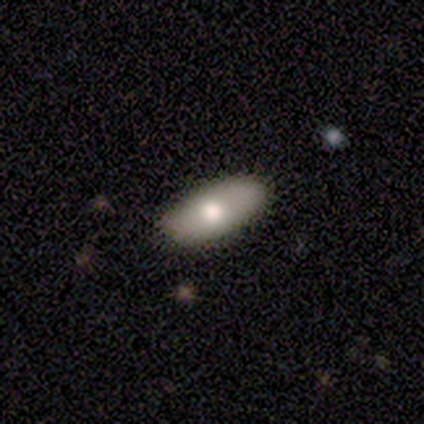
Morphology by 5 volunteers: Volunteers were most divided on "merging": none: 80%, minor disturbance: 20%, major disturbance: 0%, merger: 0%. More confident: smooth or featured — smooth (100%); how rounded — in between (100%).